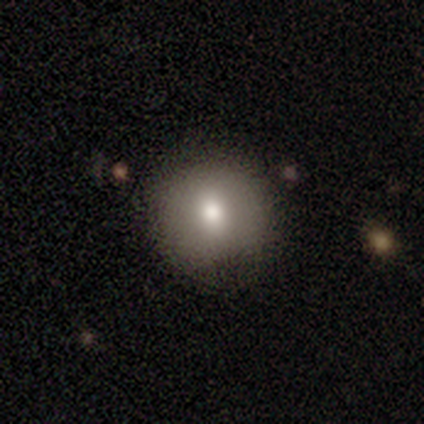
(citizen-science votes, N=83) This is likely a smooth galaxy (80%). How rounded: clearly round (94%). Merging: clearly none (85%).